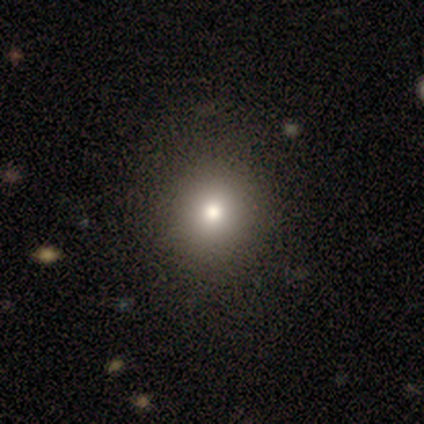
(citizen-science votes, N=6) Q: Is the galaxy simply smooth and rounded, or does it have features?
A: smooth — 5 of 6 (83%).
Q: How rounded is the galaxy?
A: round — 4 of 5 (80%).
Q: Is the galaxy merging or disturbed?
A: none — 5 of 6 (83%).